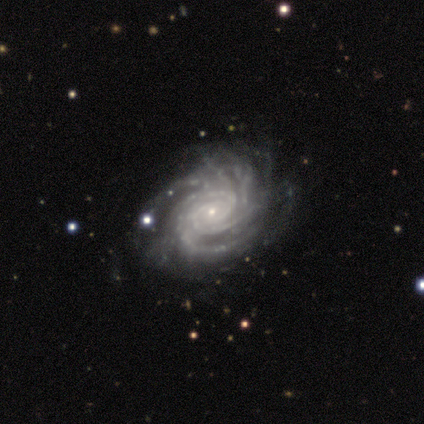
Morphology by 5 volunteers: Overall: featured or disk (100%). Edge-on disk: no (100%). Bar: no (80%). Spiral arms: yes (100%). Spiral arm count: can't tell (60%; 4 20%). Spiral winding: tight (60%; medium 40%). Bulge size: small (100%). Merging: none (60%; minor disturbance 20%).